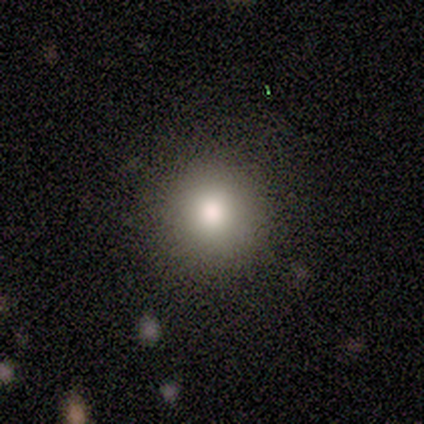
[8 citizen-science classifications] Smooth or featured? smooth (88%)
How rounded? round (100%)
Merging? none (100%)